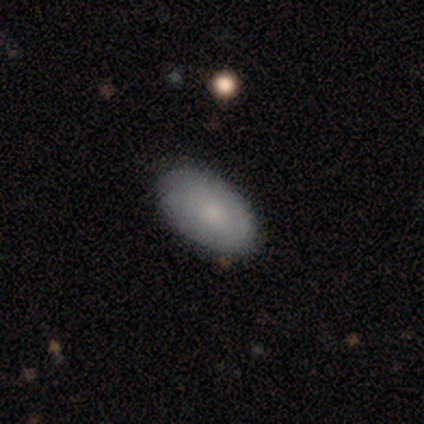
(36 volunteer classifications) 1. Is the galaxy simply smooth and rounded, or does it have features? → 78% smooth, 22% featured or disk, 0% star or artifact.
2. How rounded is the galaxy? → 100% in between, 0% round, 0% cigar-shaped.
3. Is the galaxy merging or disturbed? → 89% none, 11% minor disturbance, 0% major disturbance, 0% merger.